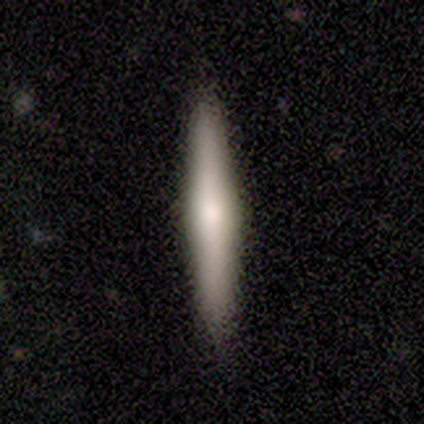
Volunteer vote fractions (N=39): Smooth or featured: smooth — 51% (featured or disk — 38%)
How rounded: cigar-shaped — 100%
Merging: none — 94% (minor disturbance — 6%)